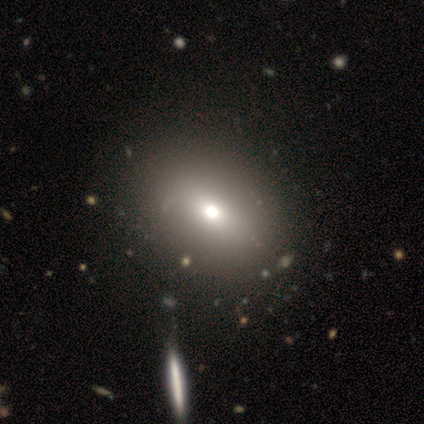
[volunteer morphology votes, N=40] type=smooth (65%); roundness=in between (77%); merging=none (69%).